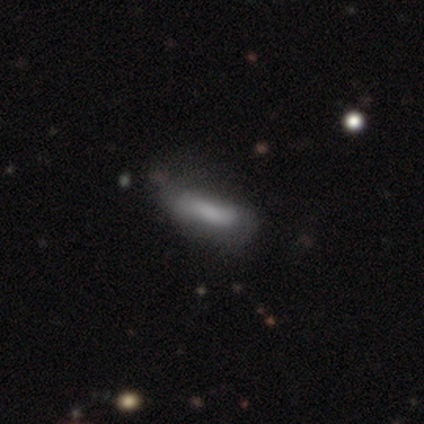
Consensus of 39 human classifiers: Q: Smooth or featured?
A: smooth (67%); runner-up: featured or disk (33%)
Q: How rounded?
A: in between (54%); runner-up: cigar-shaped (46%)
Q: Merging?
A: none (38%); runner-up: minor disturbance (21%)